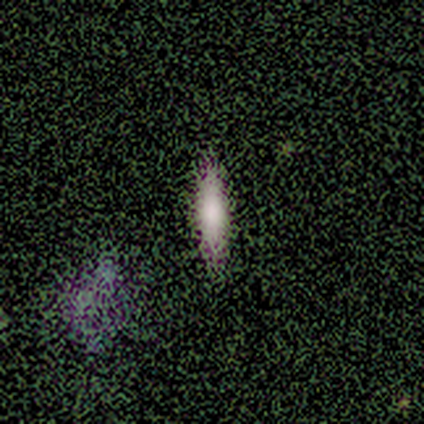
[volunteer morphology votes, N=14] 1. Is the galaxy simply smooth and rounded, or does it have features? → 71% smooth, 14% featured or disk, 14% star or artifact.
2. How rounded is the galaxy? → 100% cigar-shaped, 0% round, 0% in between.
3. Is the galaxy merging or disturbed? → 92% none, 8% minor disturbance, 0% major disturbance, 0% merger.